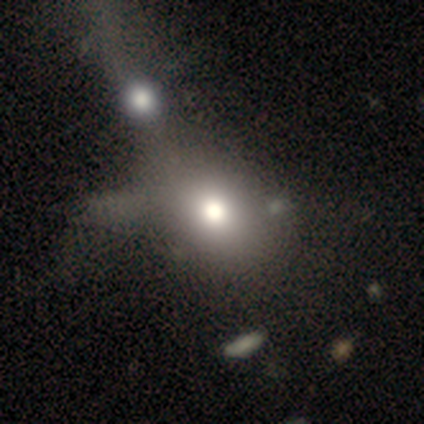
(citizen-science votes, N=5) smooth-or-featured: smooth: 40% (tied) | featured or disk: 40% (tied) | star or artifact: 20%
  how-rounded: round: 50% (tied) | in between: 50% (tied) | cigar-shaped: 0%
  merging: merger: 75% | none: 25% | minor disturbance: 0% | major disturbance: 0%